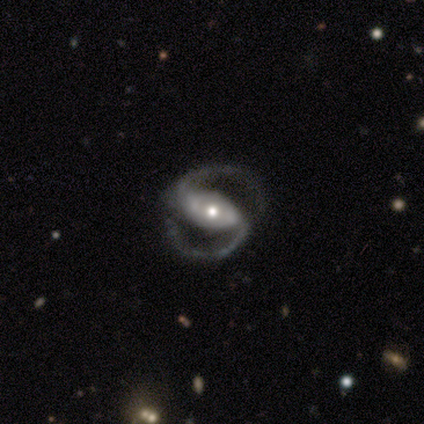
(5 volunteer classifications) A featured or disk galaxy (100%) with a strong bar (80%), 2 (100%) medium (40%, tied with loose) spiral arms (100%) and a small central bulge (60%).

Vote fractions:
- Smooth or featured? featured or disk: 100% / smooth: 0% / star or artifact: 0%
- Edge-on disk? no: 100% / yes: 0%
- Bar? strong: 80% / weak: 20% / no: 0%
- Spiral arms? yes: 100% / no: 0%
- Spiral winding? medium: 40% (tied) / loose: 40% (tied) / tight: 20%
- Spiral arm count? 2: 100% / 1: 0% / 3: 0% / 4: 0% / more than 4: 0% / can't tell: 0%
- Bulge size? small: 60% / moderate: 40% / dominant: 0% / large: 0% / none: 0%
- Merging? none: 80% / minor disturbance: 20% / major disturbance: 0% / merger: 0%